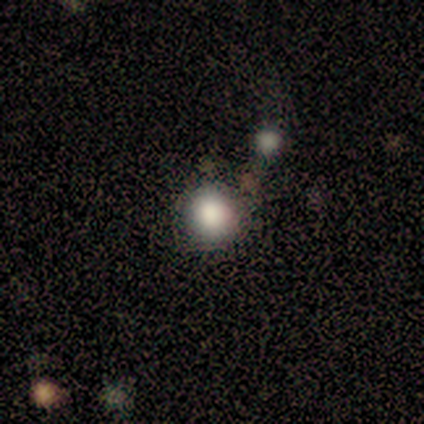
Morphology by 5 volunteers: Overall: smooth (80%). How rounded: round (75%). Merging: none (50%; minor disturbance 25%).